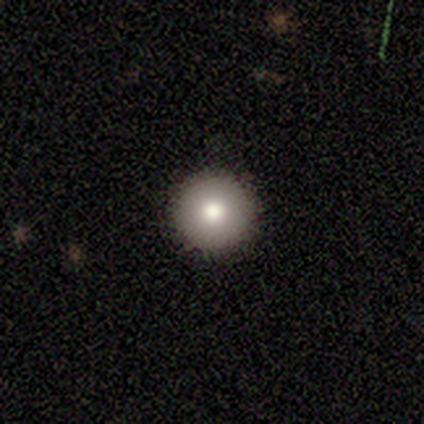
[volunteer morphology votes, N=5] Smooth or featured? 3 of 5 (60%) said smooth. How rounded? 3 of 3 (100%) said round. Merging? 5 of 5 (100%) said none.